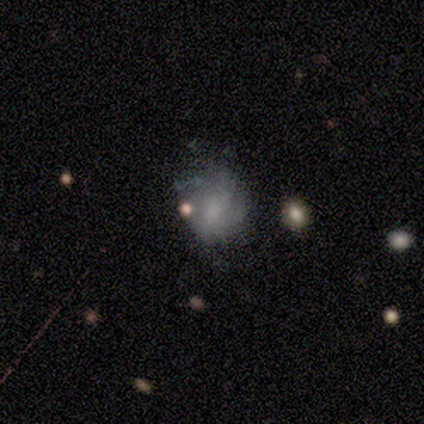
smooth_or_featured: smooth (p=0.56) [alt: featured or disk p=0.33]
how_rounded: in between (p=0.80) [alt: round p=0.20]
merging: none (p=0.50) [alt: major disturbance p=0.38]